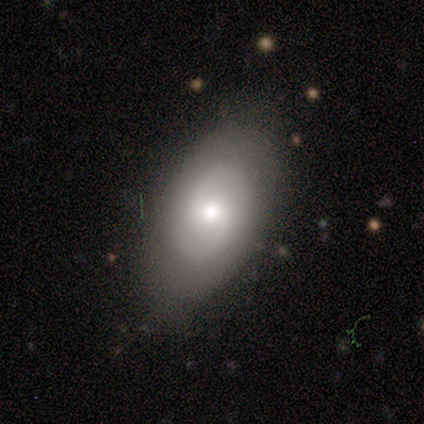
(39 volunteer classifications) Smooth or featured: featured or disk — 77% (smooth — 23%)
Edge-on disk: no — 93% (yes — 7%)
Bar: no — 54% (weak — 43%)
Spiral arms: yes — 86% (no — 14%)
Spiral winding: medium — 54% (loose — 33%)
Spiral arm count: 2 — 96% (1 — 4%)
Bulge size: moderate — 57% (small — 29%)
Merging: none — 90% (minor disturbance — 10%)